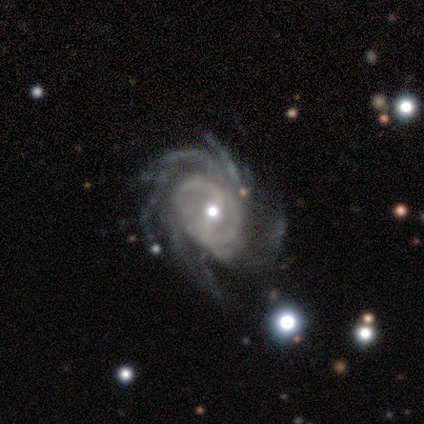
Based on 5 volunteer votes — Smooth or featured? featured or disk (100%)
Edge-on disk? no (100%)
Bar? weak (40%, tied with no)
Spiral arms? yes (100%)
Spiral winding? medium (80%)
Spiral arm count? more than 4 (80%)
Bulge size? moderate (40%, tied with small)
Merging? none (40%, tied with major disturbance)